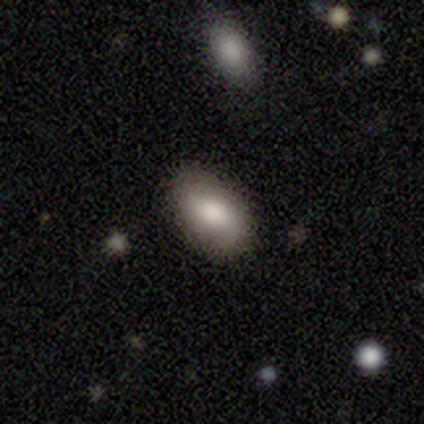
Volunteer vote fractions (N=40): Q: Smooth or featured?
A: smooth (80%); runner-up: featured or disk (18%)
Q: How rounded?
A: in between (97%); runner-up: cigar-shaped (3%)
Q: Merging?
A: none (82%); runner-up: minor disturbance (13%)